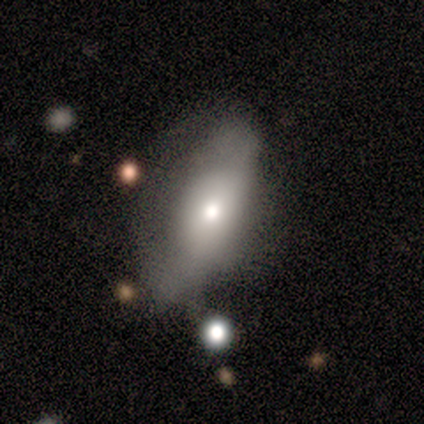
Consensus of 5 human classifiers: smooth_or_featured: featured or disk (p=0.60) [alt: smooth p=0.40]
disk_edge_on: no (p=0.67) [alt: yes p=0.33]
bar: no (p=1.00)
has_spiral_arms: no (p=1.00)
bulge_size: small (p=1.00)
merging: none (p=0.40) [tied with: minor disturbance p=0.40]